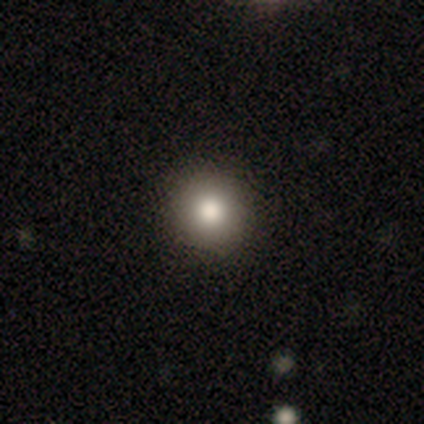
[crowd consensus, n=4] Smooth or featured: smooth — 100%
How rounded: round — 100%
Merging: none — 100%